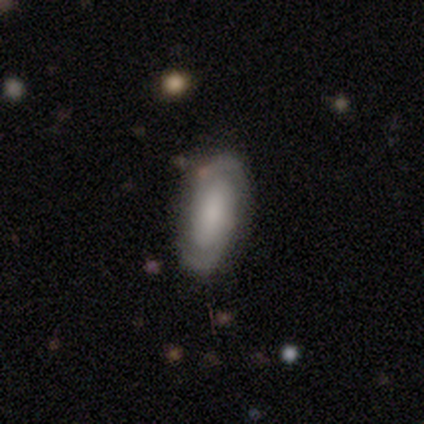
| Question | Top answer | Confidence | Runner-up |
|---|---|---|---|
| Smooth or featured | featured or disk | 76% | smooth (16%) |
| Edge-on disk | no | 93% | yes (7%) |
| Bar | no | 54% | strong (27%) |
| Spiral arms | yes | 88% | no (12%) |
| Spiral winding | medium | 43% | tight (35%) |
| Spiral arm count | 2 | 96% | can't tell (4%) |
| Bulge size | none | 31% | large (23%) |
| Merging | none | 76% | minor disturbance (15%) |